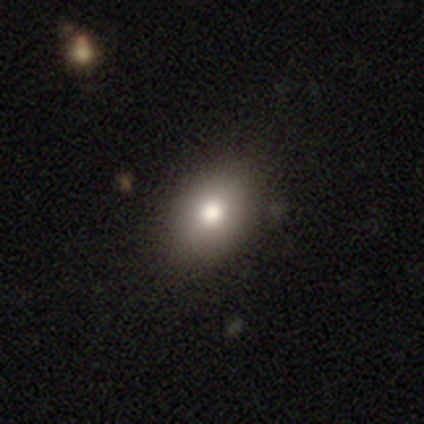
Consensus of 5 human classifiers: This appears to be a smooth galaxy with no disk features (60%) that is in between round and cigar-shaped (67%). Merging: none (75%).